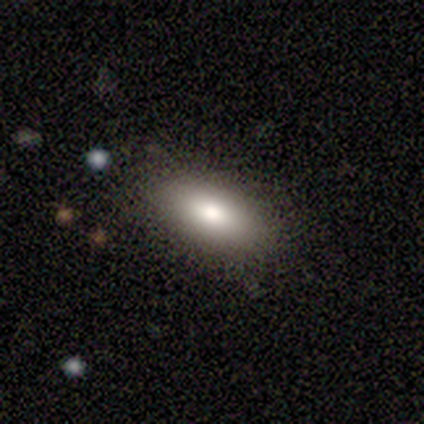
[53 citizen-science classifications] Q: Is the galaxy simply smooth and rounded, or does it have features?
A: smooth — 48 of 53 (91%).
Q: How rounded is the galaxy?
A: in between — 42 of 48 (88%).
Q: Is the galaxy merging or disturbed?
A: none — 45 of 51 (88%).